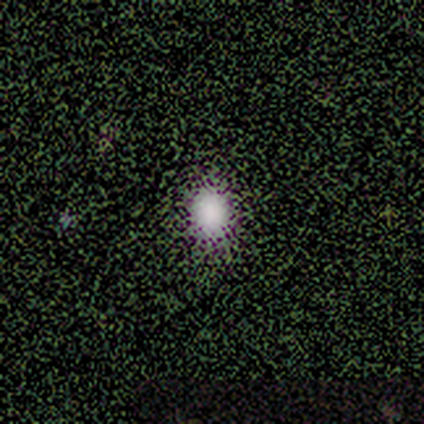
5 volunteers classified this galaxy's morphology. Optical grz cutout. It shows a smooth galaxy with no disk features (100%) that is round (60%). Merging: none (100%).